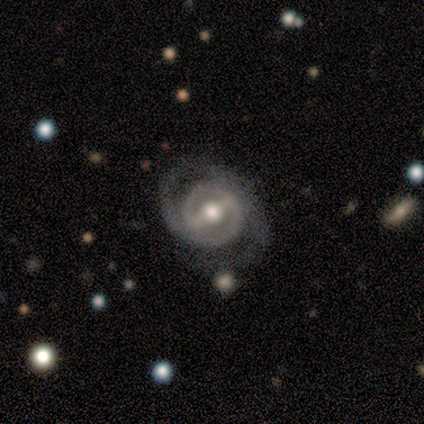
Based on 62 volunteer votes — This appears to be a featured or disk galaxy (87%) with a strong bar (61%), 2 (79%) tight (55%) spiral arms (92%) and a moderate central bulge (76%). Merging: none (67%).